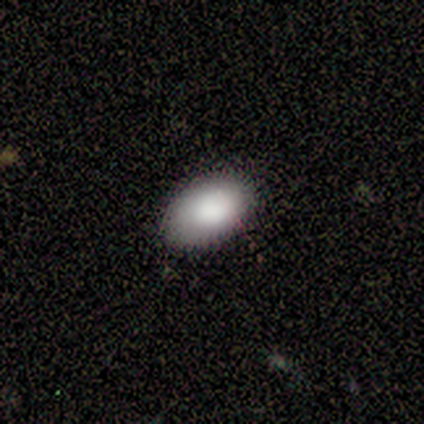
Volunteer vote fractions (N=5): Smooth or featured?
  - smooth: 100% *
  - featured or disk: 0%
  - star or artifact: 0%
How rounded?
  - in between: 100% *
  - round: 0%
  - cigar-shaped: 0%
Merging?
  - none: 100% *
  - minor disturbance: 0%
  - major disturbance: 0%
  - merger: 0%